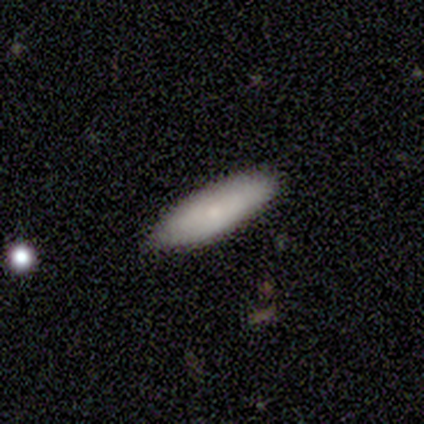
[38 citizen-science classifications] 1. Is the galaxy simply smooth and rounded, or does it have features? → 76% smooth, 21% featured or disk, 3% star or artifact.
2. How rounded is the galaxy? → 55% cigar-shaped, 45% in between, 0% round.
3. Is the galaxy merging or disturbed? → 81% none, 14% minor disturbance, 5% merger, 0% major disturbance.